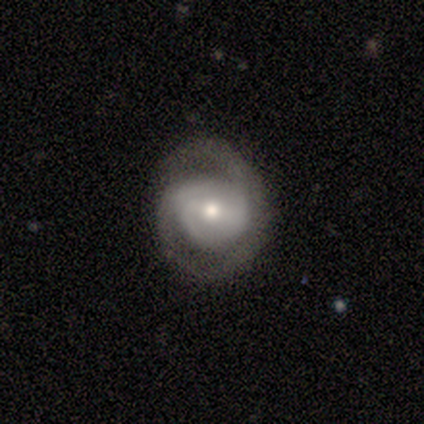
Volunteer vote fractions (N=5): Morphology: type=featured or disk (80%); edge-on=no (100%); bar=weak (50%, tied with no); spiral arms=yes (75%); winding=tight (33%, tied with medium and loose); arm count=2 (67%); bulge=moderate (75%); merging=none (60%).